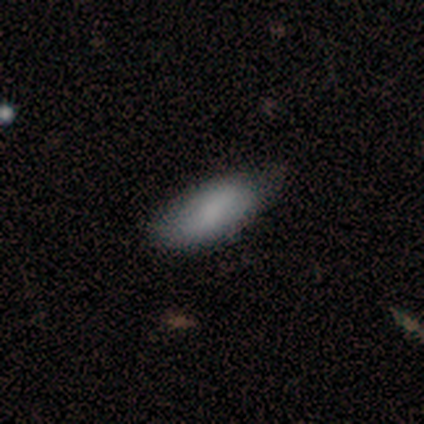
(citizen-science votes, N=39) A smooth galaxy with no disk features (64%) that is in between round and cigar-shaped (84%). Merging: none (71%).